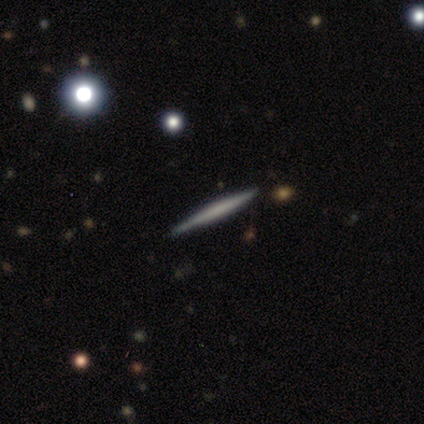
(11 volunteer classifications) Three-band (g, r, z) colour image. It shows a featured or disk galaxy (73%) viewed edge-on (100%) with no central bulge (75%). Merging: none (100%).